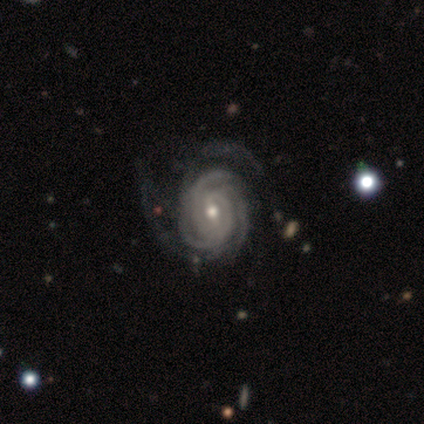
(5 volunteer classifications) Smooth or featured? featured or disk (80%)
Edge-on disk? no (100%)
Bar? weak (50%, tied with no)
Spiral arms? yes (100%)
Spiral winding? tight (75%)
Spiral arm count? 3 (50%)
Bulge size? small (75%)
Merging? none (50%)